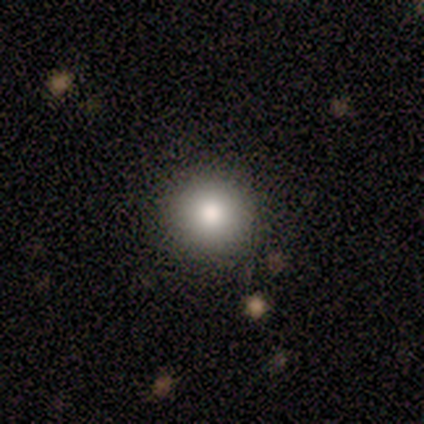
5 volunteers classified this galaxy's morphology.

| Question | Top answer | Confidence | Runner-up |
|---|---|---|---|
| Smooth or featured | smooth | 100% | — |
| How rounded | round | 100% | — |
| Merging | none | 100% | — |